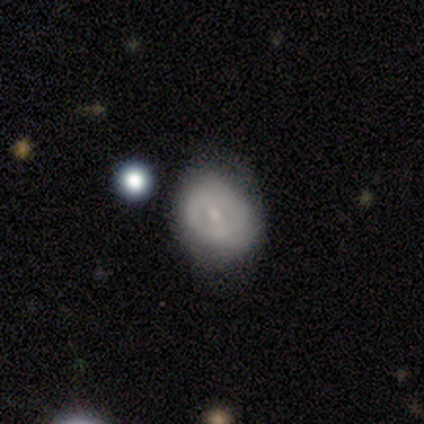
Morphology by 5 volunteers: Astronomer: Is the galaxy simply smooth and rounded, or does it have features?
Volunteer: smooth — 40%, tied with featured or disk at 40%.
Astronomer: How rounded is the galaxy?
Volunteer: in between — 100%.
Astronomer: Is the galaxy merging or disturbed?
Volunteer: minor disturbance — 50%.